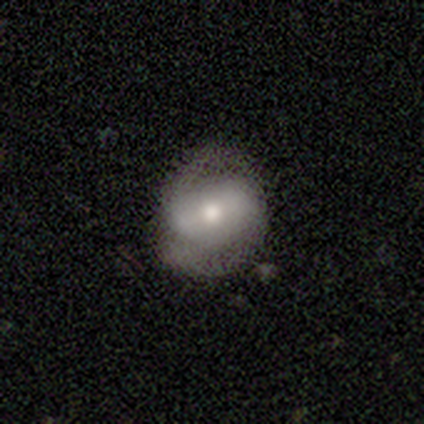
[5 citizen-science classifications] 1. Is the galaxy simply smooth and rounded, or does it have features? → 80% featured or disk, 20% smooth, 0% star or artifact.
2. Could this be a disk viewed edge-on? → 100% no, 0% yes.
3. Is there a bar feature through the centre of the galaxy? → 75% strong, 25% weak, 0% no.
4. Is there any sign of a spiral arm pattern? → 100% yes, 0% no.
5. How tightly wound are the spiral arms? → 75% medium, 25% tight, 0% loose.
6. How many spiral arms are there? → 75% 2, 25% can't tell, 0% 1, 0% 3, 0% 4, 0% more than 4.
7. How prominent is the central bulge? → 100% moderate, 0% dominant, 0% large, 0% small, 0% none.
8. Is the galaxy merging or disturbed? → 60% none, 40% minor disturbance, 0% major disturbance, 0% merger.